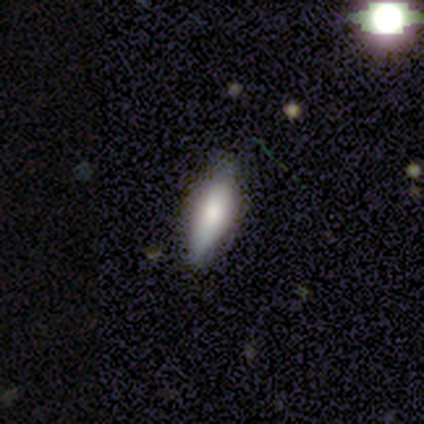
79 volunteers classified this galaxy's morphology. smooth-or-featured: smooth: 75% | featured or disk: 19% | star or artifact: 6%
  how-rounded: in between: 66% | cigar-shaped: 34% | round: 0%
  merging: none: 41% | minor disturbance: 5% | major disturbance: 3% | merger: 1%